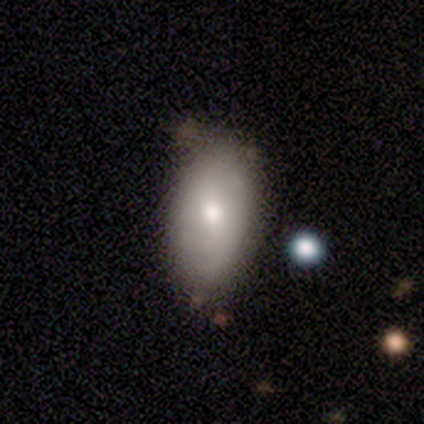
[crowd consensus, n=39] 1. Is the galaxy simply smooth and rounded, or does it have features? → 74% smooth, 23% featured or disk, 3% star or artifact.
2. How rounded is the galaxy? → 97% in between, 3% round, 0% cigar-shaped.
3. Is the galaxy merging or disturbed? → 55% none, 13% minor disturbance, 11% merger, 3% major disturbance.